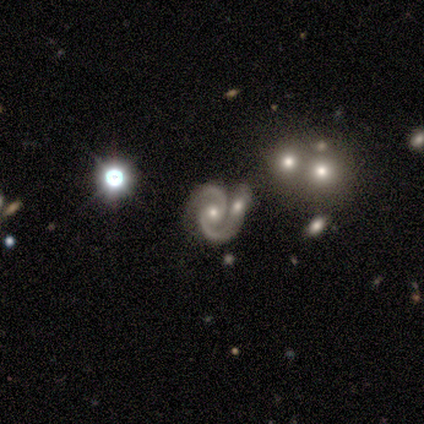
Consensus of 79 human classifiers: This is clearly a featured or disk galaxy (87%). It is clearly not viewed edge-on (100%). Bar: likely no (70%). Spiral arm pattern: clearly yes (99%). Spiral arm count: clearly 2 (96%). Spiral winding: possibly medium (54%). Central bulge: possibly moderate (58%). Merging: likely merger (66%).